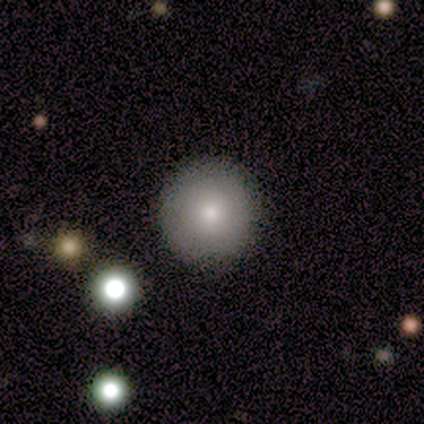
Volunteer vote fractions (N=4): Volunteers were most divided on "smooth or featured": smooth: 75%, featured or disk: 25%, star or artifact: 0%. More confident: how rounded — round (100%); merging — none (100%).